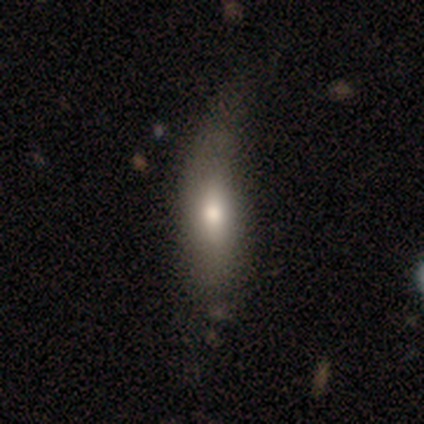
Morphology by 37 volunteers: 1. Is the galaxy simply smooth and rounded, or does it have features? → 65% smooth, 30% featured or disk, 5% star or artifact.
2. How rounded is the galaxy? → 54% in between, 46% cigar-shaped, 0% round.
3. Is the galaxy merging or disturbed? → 40% none, 31% minor disturbance, 26% major disturbance, 3% merger.